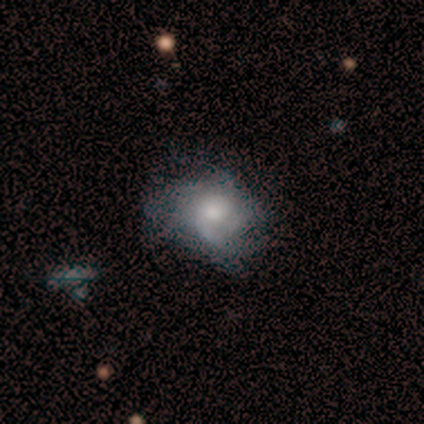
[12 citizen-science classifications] Volunteers were most divided on "bulge size" (2-way tie): moderate: 38%, small: 38%, large: 25%, dominant: 0%, none: 0%. More confident: edge-on disk — no (89%); smooth or featured — featured or disk (75%); bar — no (62%); spiral arms — yes (62%); spiral arm count — can't tell (60%); spiral winding — medium (60%); merging — none (55%).